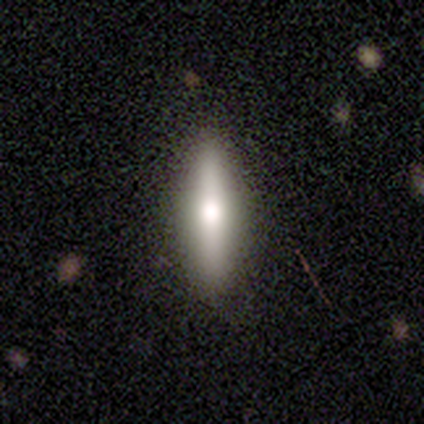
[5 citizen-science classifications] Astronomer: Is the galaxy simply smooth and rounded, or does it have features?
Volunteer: featured or disk — 80%.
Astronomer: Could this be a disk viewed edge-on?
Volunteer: yes — 100%.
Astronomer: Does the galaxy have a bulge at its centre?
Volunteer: rounded — 100%.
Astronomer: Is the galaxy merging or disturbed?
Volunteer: none — 100%.